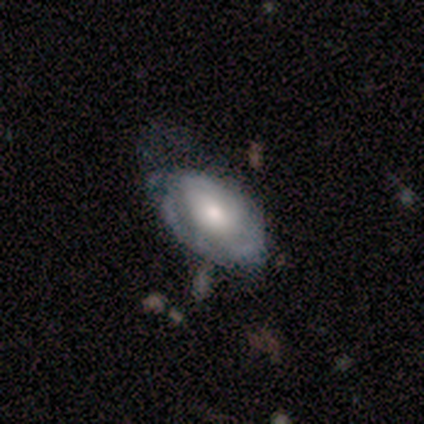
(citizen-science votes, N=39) featured or disk 72%, smooth 28%, star or artifact 0%. Down the decision tree: edge-on disk — no (93%); bar — no (88%); spiral arms — yes (65%); spiral arm count — can't tell (65%); spiral winding — tight (53%); bulge size — moderate (58%); merging — none (41%).